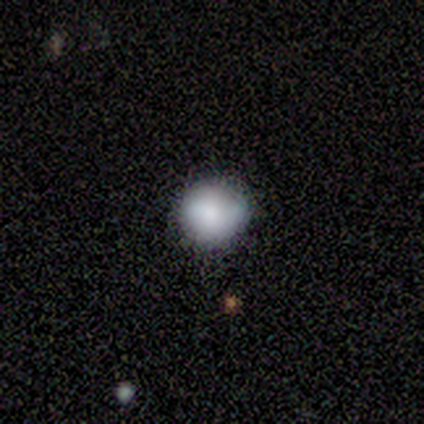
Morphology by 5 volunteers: Smooth or featured?
  - smooth: 100% *
  - featured or disk: 0%
  - star or artifact: 0%
How rounded?
  - round: 100% *
  - in between: 0%
  - cigar-shaped: 0%
Merging?
  - none: 80% *
  - minor disturbance: 20%
  - major disturbance: 0%
  - merger: 0%